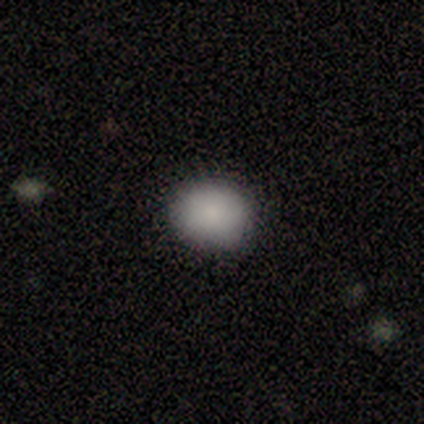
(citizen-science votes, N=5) smooth 100%, featured or disk 0%, star or artifact 0%. Down the decision tree: how rounded — in between (60%); merging — none (80%).